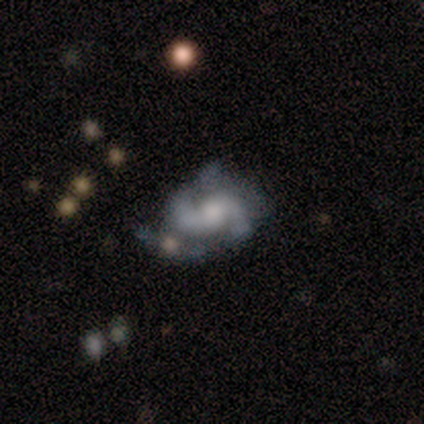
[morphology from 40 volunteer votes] type=featured or disk (90%); edge-on=no (97%); bar=no (51%); spiral arms=yes (94%); winding=medium (55%); arm count=2 (100%); bulge=moderate (57%); merging=none (39%).